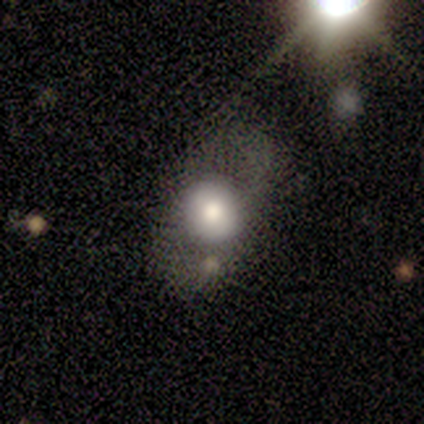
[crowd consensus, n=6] A smooth galaxy with no disk features (83%) that is round (100%).

Vote fractions:
- Smooth or featured? smooth: 83% / featured or disk: 17% / star or artifact: 0%
- How rounded? round: 100% / in between: 0% / cigar-shaped: 0%
- Merging? none: 83% / minor disturbance: 17% / major disturbance: 0% / merger: 0%